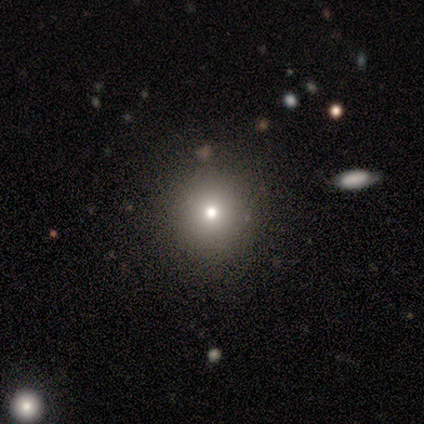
This appears to be a smooth galaxy with no disk features (67%) that is round (100%). Merging: none (100%).